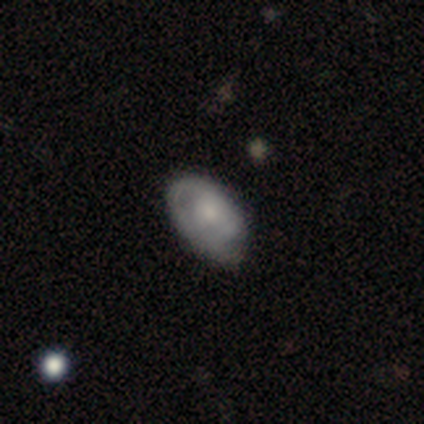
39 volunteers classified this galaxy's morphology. Smooth or featured: smooth — 49% (featured or disk — 41%)
How rounded: in between — 89% (round — 5%)
Merging: none — 60% (minor disturbance — 23%)